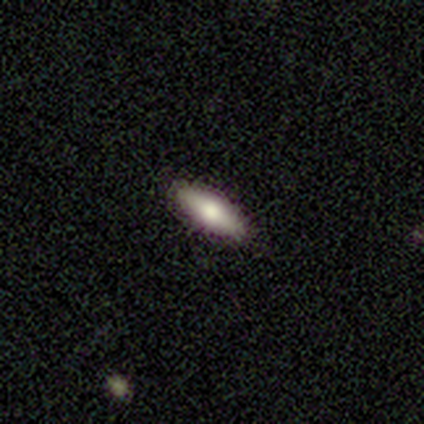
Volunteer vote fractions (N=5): Q: Smooth or featured?
A: smooth (80%); runner-up: star or artifact (20%)
Q: How rounded?
A: in between (50%); tied with: cigar-shaped (50%)
Q: Merging?
A: none (100%)